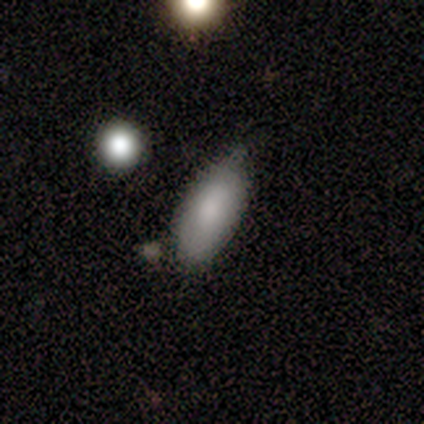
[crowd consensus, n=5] Smooth or featured? smooth (100%)
How rounded? in between (100%)
Merging? none (80%)